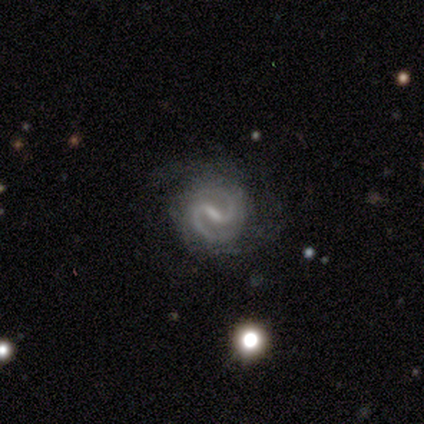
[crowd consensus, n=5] This appears to be a featured or disk galaxy (100%) with a strong bar (100%), 2 (100%) medium (80%) spiral arms (100%) and a moderate central bulge (40%, tied with none). Merging: none (80%).